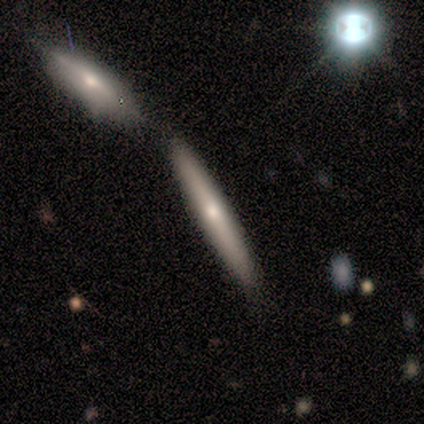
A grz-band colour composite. It shows a featured or disk galaxy (60%) viewed edge-on (100%) with no central bulge (67%). Merging: none (40%, tied with merger).